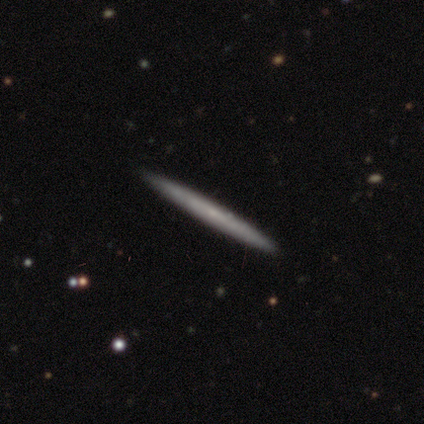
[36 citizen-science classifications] A featured or disk galaxy (50%) viewed edge-on (89%) with no central bulge (88%). Merging: none (91%).